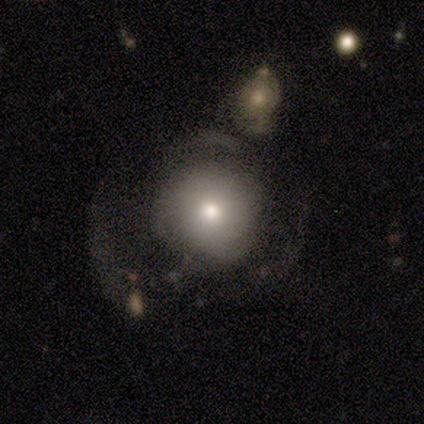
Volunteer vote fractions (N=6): Overall: smooth (83%). How rounded: round (100%). Merging: none (50%; major disturbance 33%).